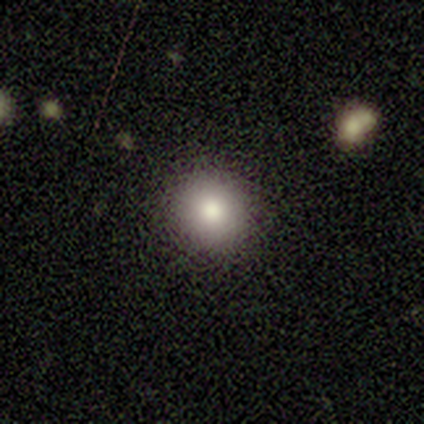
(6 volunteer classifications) smooth_or_featured: smooth (p=1.00)
how_rounded: round (p=1.00)
merging: none (p=1.00)